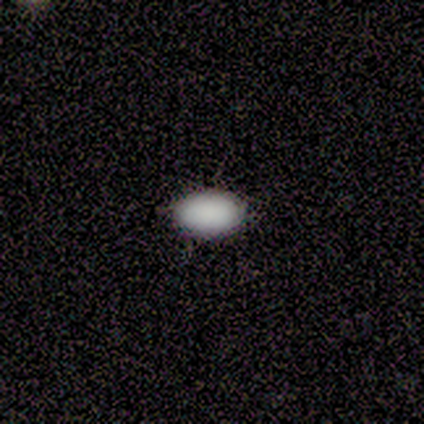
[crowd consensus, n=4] smooth_or_featured: smooth (p=1.00)
how_rounded: in between (p=1.00)
merging: none (p=1.00)